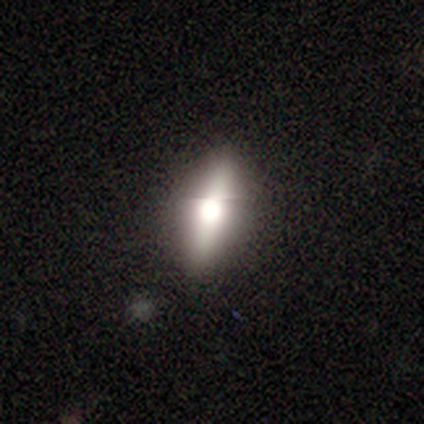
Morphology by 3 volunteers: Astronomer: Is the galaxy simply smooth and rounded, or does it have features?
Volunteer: smooth — 67%.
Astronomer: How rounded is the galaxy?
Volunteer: in between — 100%.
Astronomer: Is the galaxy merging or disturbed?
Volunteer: none — 67%.